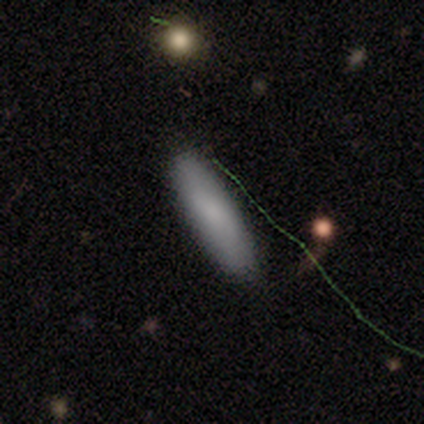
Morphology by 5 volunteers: A smooth galaxy with no disk features (100%) that is cigar-shaped (80%).

Vote fractions:
- Smooth or featured? smooth: 100% / featured or disk: 0% / star or artifact: 0%
- How rounded? cigar-shaped: 80% / in between: 20% / round: 0%
- Merging? none: 60% / minor disturbance: 20% / merger: 20% / major disturbance: 0%